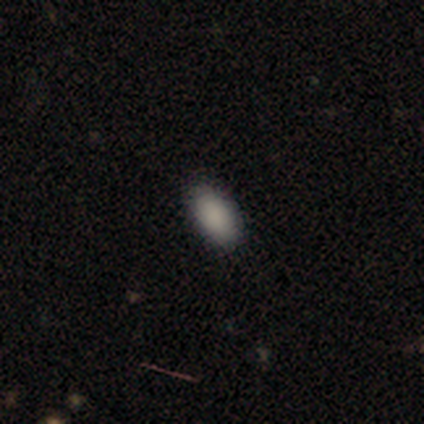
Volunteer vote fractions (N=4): Morphology: type=smooth (100%); roundness=in between (100%); merging=none (100%).